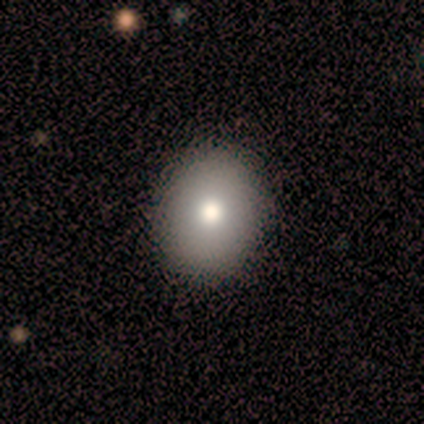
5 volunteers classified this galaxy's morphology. A smooth galaxy with no disk features (60%) that is round (67%).

Vote fractions:
- Smooth or featured? smooth: 60% / star or artifact: 40% / featured or disk: 0%
- How rounded? round: 67% / in between: 33% / cigar-shaped: 0%
- Merging? none: 100% / minor disturbance: 0% / major disturbance: 0% / merger: 0%